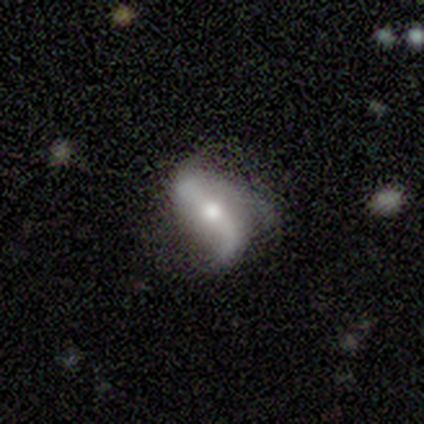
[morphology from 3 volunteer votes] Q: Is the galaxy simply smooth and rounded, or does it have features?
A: featured or disk — 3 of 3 (100%).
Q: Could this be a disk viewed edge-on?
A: no — 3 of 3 (100%).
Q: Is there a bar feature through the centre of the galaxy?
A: strong — 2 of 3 (67%).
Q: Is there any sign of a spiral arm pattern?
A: yes — 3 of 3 (100%).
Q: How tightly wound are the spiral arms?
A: loose — 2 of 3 (67%).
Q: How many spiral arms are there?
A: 2 — 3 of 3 (100%).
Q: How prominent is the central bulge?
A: moderate — 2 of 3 (67%).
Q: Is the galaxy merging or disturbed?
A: none — 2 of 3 (67%).